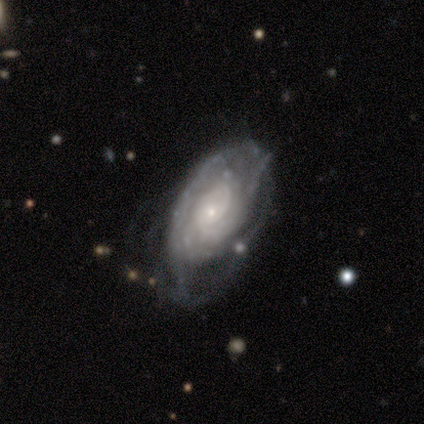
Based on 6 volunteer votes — smooth-or-featured: featured or disk: 100% | smooth: 0% | star or artifact: 0%
  disk-edge-on: no: 100% | yes: 0%
    bar: no: 67% | weak: 33% | strong: 0%
    has-spiral-arms: yes: 100% | no: 0%
      spiral-winding: tight: 100% | medium: 0% | loose: 0%
      spiral-arm-count: can't tell: 33% | 2: 17% | 3: 17% | 4: 17% | more than 4: 17% | 1: 0%
    bulge-size: small: 83% | moderate: 17% | dominant: 0% | large: 0% | none: 0%
  merging: none: 67% | minor disturbance: 17% | major disturbance: 17% | merger: 0%